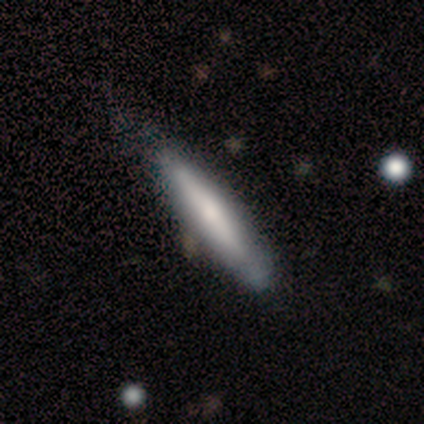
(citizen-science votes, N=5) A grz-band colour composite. It shows a smooth galaxy with no disk features (80%) that is cigar-shaped (100%). Merging: none (80%).